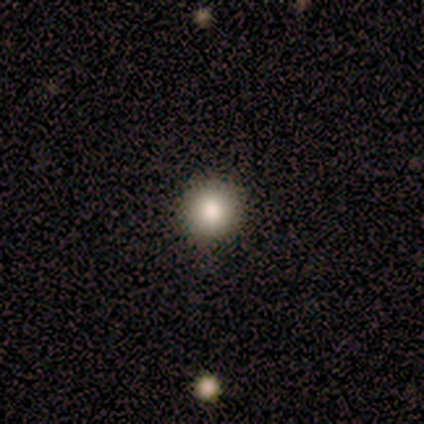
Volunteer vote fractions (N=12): Smooth or featured? 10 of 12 (83%) said smooth. How rounded? 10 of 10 (100%) said round. Merging? 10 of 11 (91%) said none.